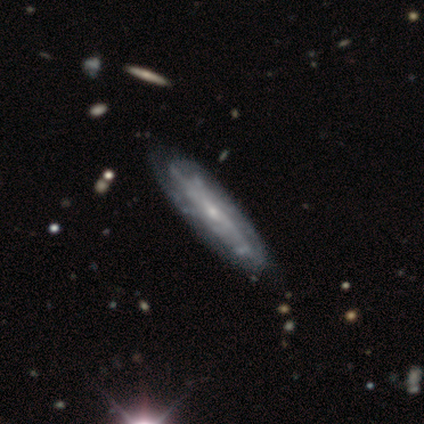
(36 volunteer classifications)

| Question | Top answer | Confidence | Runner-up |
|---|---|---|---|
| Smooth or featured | featured or disk | 78% | smooth (17%) |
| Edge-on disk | no | 68% | yes (32%) |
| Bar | no | 58% | weak (26%) |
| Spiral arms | yes | 79% | no (21%) |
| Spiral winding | tight | 67% | medium (20%) |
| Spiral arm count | can't tell | 67% | 2 (13%) |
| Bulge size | small | 79% | moderate (16%) |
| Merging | none | 71% | minor disturbance (6%) |